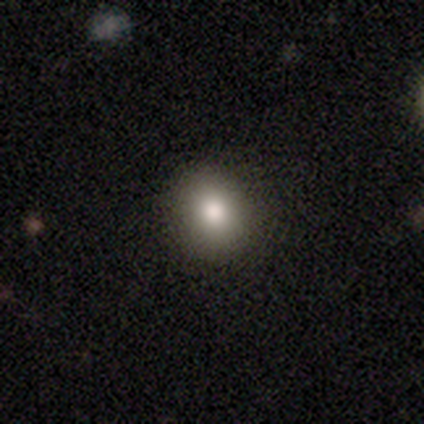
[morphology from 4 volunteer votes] Smooth or featured? 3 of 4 (75%) said smooth. How rounded? 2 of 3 (67%) said round. Merging? 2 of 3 (67%) said none.